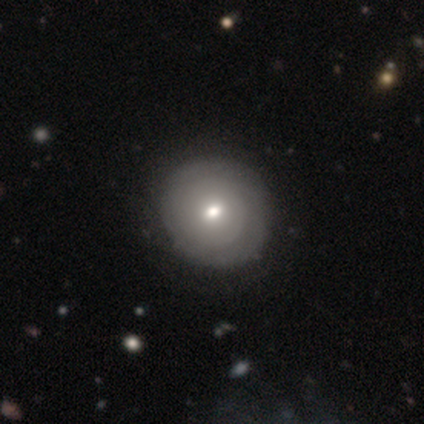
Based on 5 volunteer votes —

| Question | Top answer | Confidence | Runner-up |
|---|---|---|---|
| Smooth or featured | smooth | 100% | — |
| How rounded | round | 80% | in between (20%) |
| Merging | none | 60% | minor disturbance (20%) |